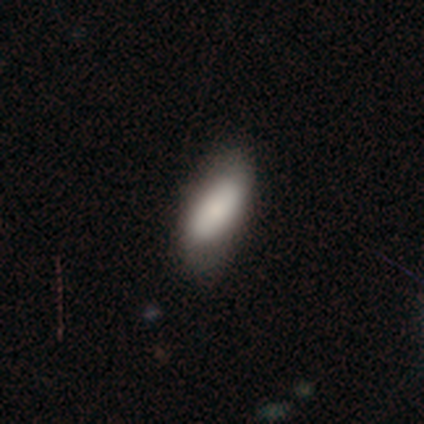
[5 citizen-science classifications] Morphology: type=smooth (80%); roundness=in between (100%); merging=none (60%).